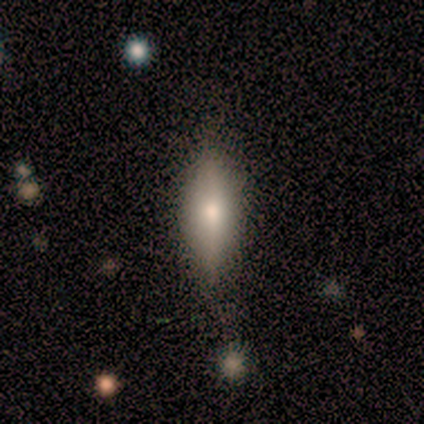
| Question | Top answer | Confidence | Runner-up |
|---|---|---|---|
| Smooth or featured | smooth | 60% | featured or disk (20%) |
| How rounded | cigar-shaped | 67% | in between (33%) |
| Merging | none | 100% | — |